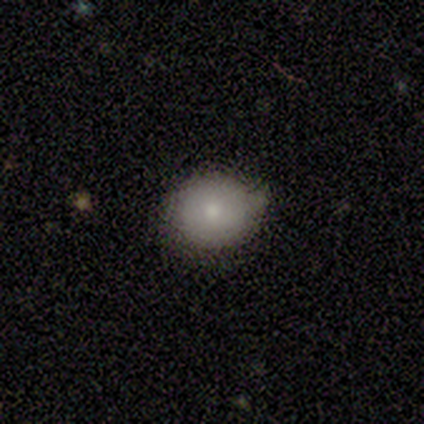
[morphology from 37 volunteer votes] Smooth or featured: smooth — 81% (featured or disk — 14%)
How rounded: round — 67% (in between — 30%)
Merging: none — 63% (minor disturbance — 34%)